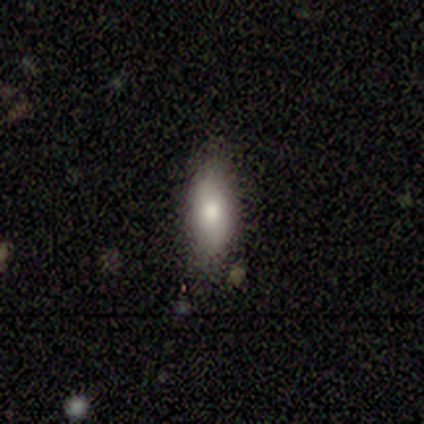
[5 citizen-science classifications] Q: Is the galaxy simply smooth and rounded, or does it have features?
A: smooth — 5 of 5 (100%).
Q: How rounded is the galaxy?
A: in between — 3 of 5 (60%).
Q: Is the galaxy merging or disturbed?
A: none — 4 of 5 (80%).